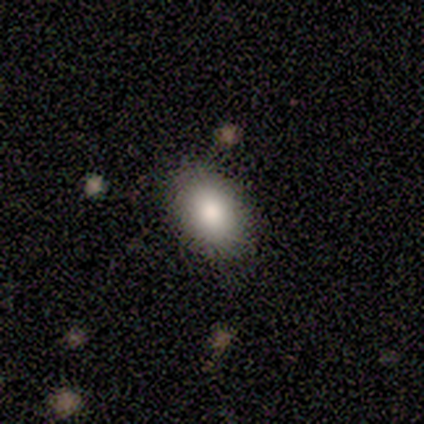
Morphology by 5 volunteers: This appears to be a smooth galaxy with no disk features (80%) that is in between round and cigar-shaped (100%). Merging: none (100%).